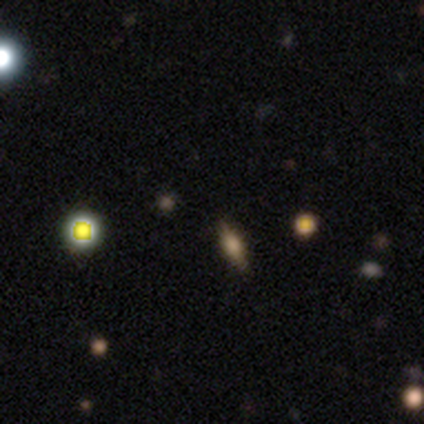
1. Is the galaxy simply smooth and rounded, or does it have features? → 56% star or artifact, 22% smooth, 22% featured or disk.